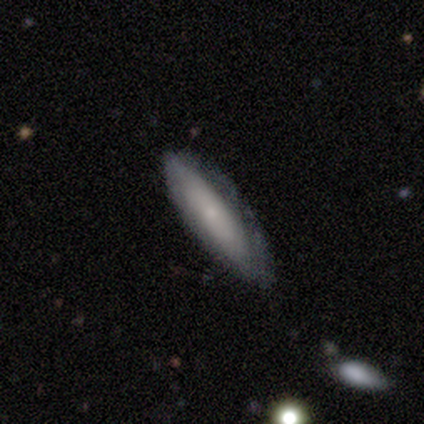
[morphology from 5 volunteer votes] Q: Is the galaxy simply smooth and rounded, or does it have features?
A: featured or disk — 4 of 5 (80%).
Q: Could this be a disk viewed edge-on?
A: no — 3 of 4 (75%).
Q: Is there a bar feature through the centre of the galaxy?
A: no — 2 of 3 (67%).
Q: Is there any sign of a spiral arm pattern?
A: yes — 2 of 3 (67%).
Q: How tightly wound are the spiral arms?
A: tight — 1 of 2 (50%, tied with medium).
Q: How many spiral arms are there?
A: can't tell — 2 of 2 (100%).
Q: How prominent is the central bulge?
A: small — 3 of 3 (100%).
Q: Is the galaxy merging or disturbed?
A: none — 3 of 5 (60%).